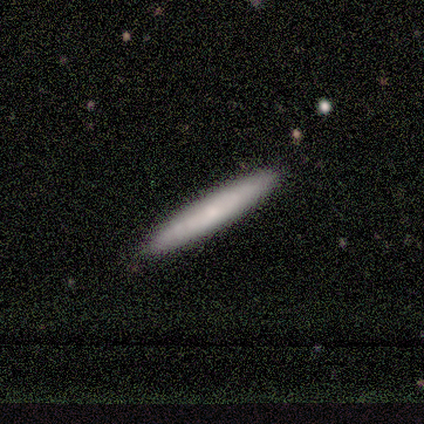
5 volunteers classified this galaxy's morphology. A featured or disk galaxy (60%) viewed edge-on (100%) with no central bulge (100%). Merging: none (100%).